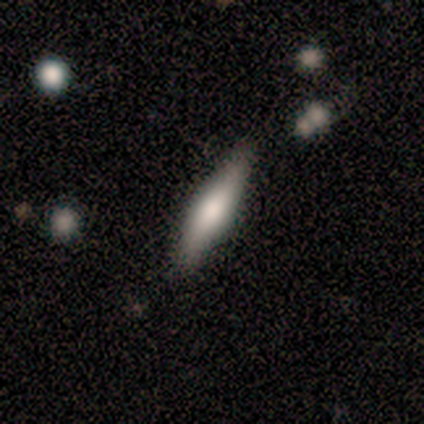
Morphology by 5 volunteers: A featured or disk galaxy (60%) viewed edge-on (67%) with a rounded central bulge (100%).

Vote fractions:
- Smooth or featured? featured or disk: 60% / smooth: 20% / star or artifact: 20%
- Edge-on disk? yes: 67% / no: 33%
- Edge-on bulge? rounded: 100% / boxy: 0% / none: 0%
- Merging? none: 100% / minor disturbance: 0% / major disturbance: 0% / merger: 0%